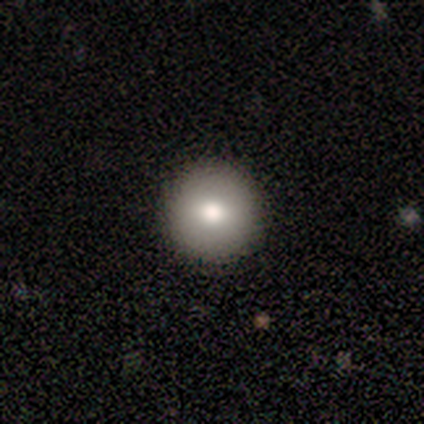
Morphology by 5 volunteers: smooth 80%, star or artifact 20%, featured or disk 0%. Down the decision tree: how rounded — round (100%); merging — none (100%).